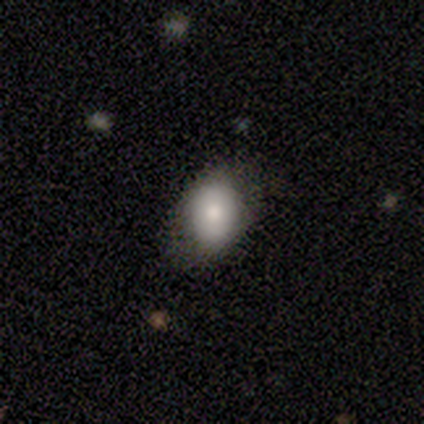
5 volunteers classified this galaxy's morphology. Q: Smooth or featured?
A: smooth (80%); runner-up: featured or disk (20%)
Q: How rounded?
A: in between (75%); runner-up: round (25%)
Q: Merging?
A: none (60%); runner-up: minor disturbance (40%)